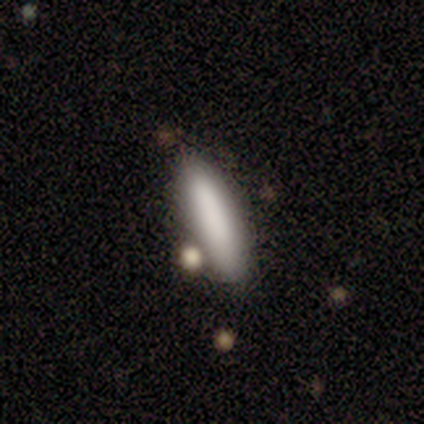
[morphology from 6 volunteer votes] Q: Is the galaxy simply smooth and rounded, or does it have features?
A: smooth — 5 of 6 (83%).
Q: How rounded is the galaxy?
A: cigar-shaped — 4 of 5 (80%).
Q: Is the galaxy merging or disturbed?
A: none — 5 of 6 (83%).